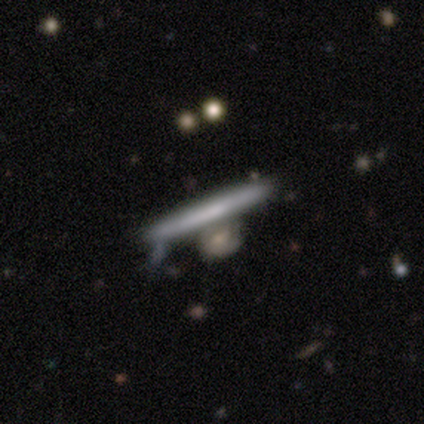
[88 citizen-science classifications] This is possibly a smooth galaxy (55%). How rounded: clearly cigar-shaped (96%). Merging: likely none (62%).